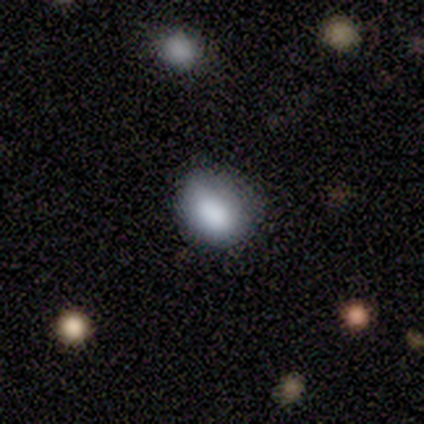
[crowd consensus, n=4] Smooth or featured? smooth (50%, tied with star or artifact)
How rounded? in between (100%)
Merging? none (100%)